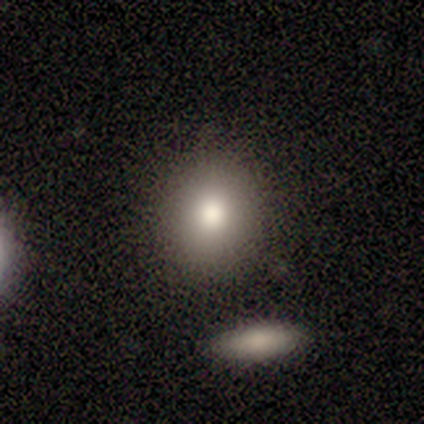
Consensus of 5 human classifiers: smooth 100%, featured or disk 0%, star or artifact 0%. Down the decision tree: how rounded — round (80%); merging — none (100%).